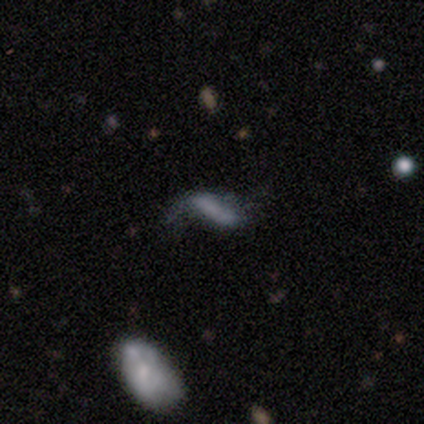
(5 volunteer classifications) This is marginally a smooth galaxy (40%, tied with featured or disk). How rounded: possibly in between (50%, tied with cigar-shaped). Merging: possibly none (50%).